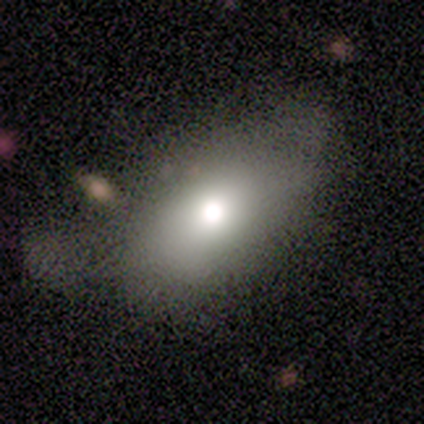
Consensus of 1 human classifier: Smooth or featured? smooth (100%)
How rounded? cigar-shaped (100%)
Merging? minor disturbance (100%)